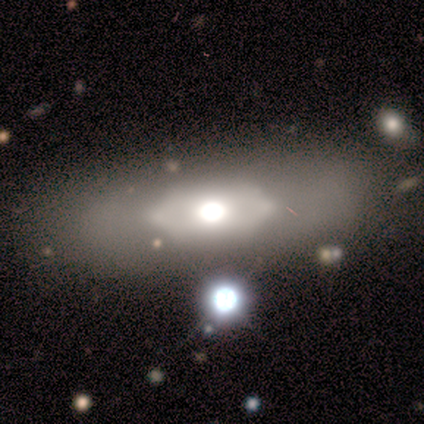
A smooth galaxy with no disk features (60%) that is in between round and cigar-shaped (100%). Merging: none (50%).